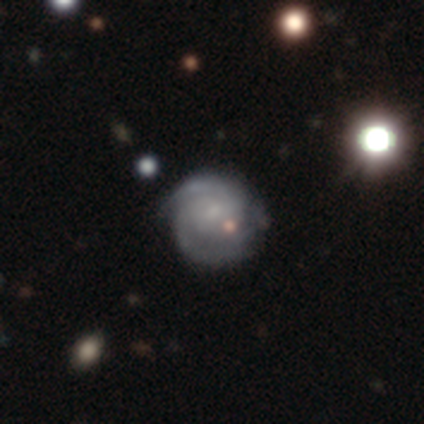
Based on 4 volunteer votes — Smooth or featured: featured or disk — 75% (smooth — 25%)
Edge-on disk: no — 100%
Bar: no — 67% (weak — 33%)
Spiral arms: yes — 100%
Spiral winding: tight — 67% (medium — 33%)
Spiral arm count: 3 — 67% (can't tell — 33%)
Bulge size: small — 100%
Merging: none — 100%